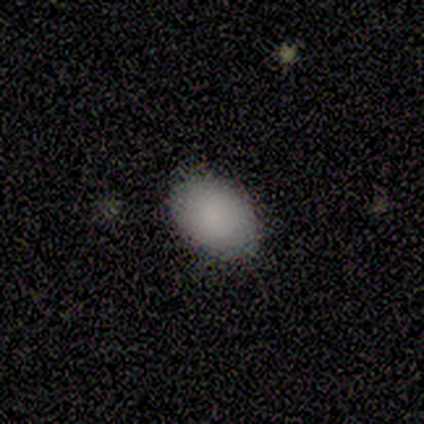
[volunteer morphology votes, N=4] Q: Smooth or featured?
A: smooth (100%)
Q: How rounded?
A: in between (75%); runner-up: round (25%)
Q: Merging?
A: none (75%); runner-up: minor disturbance (25%)